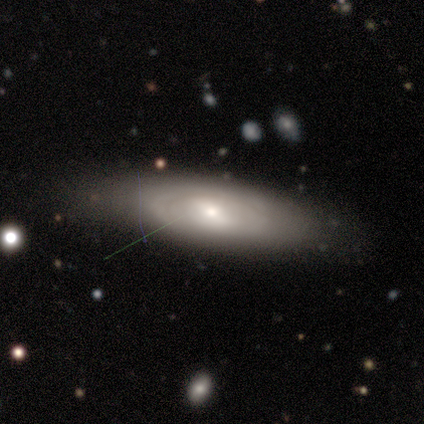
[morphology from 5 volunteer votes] type=featured or disk (80%); edge-on=no (100%); bar=no (75%); spiral arms=yes (75%); winding=tight (67%); arm count=can't tell (100%); bulge=small (75%); merging=minor disturbance (60%).